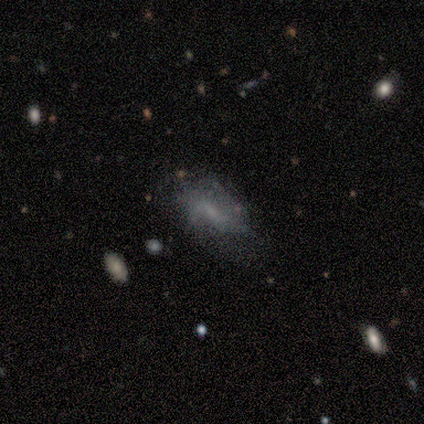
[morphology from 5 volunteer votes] Smooth or featured? smooth (40%, tied with featured or disk)
How rounded? in between (100%)
Merging? none (50%, tied with major disturbance)